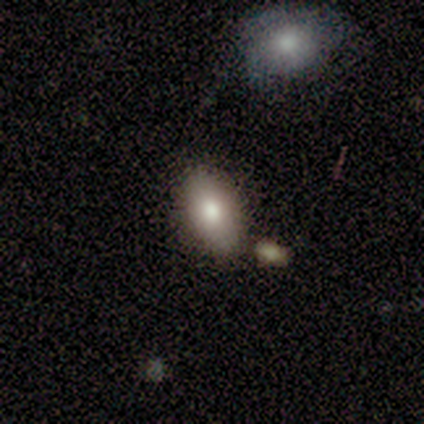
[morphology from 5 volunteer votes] Q: Smooth or featured?
A: smooth (100%)
Q: How rounded?
A: in between (80%); runner-up: cigar-shaped (20%)
Q: Merging?
A: none (80%); runner-up: minor disturbance (20%)